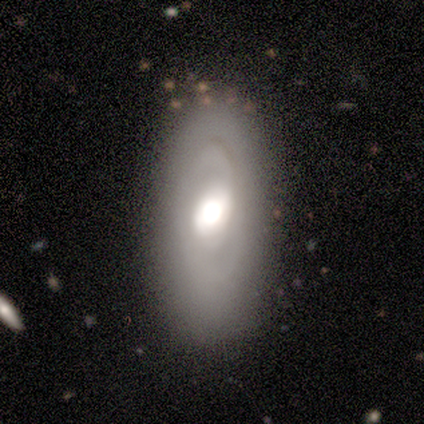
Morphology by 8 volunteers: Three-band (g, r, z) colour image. It shows a smooth galaxy with no disk features (50%, tied with featured or disk) that is in between round and cigar-shaped (75%). Merging: none (75%).